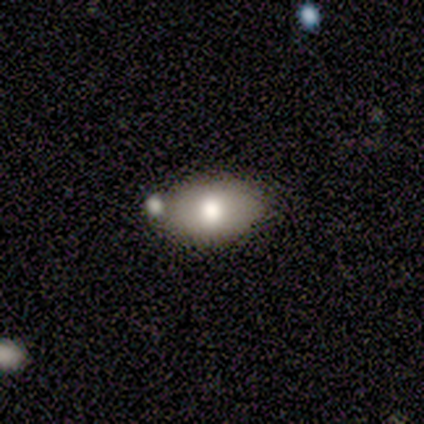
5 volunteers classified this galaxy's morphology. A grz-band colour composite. It shows a smooth galaxy with no disk features (40%, tied with featured or disk) that is in between round and cigar-shaped (100%). Merging: none (100%).